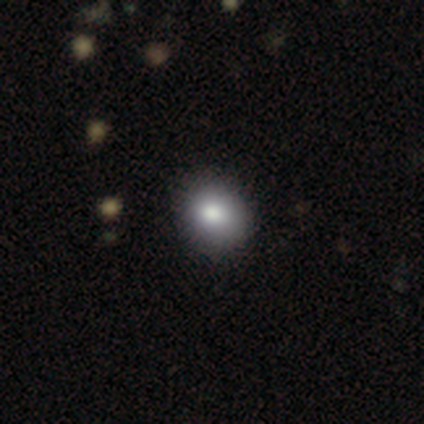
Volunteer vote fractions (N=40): Volunteers were most divided on "how rounded": round: 68%, in between: 32%, cigar-shaped: 0%. More confident: smooth or featured — smooth (78%); merging — none (57%).